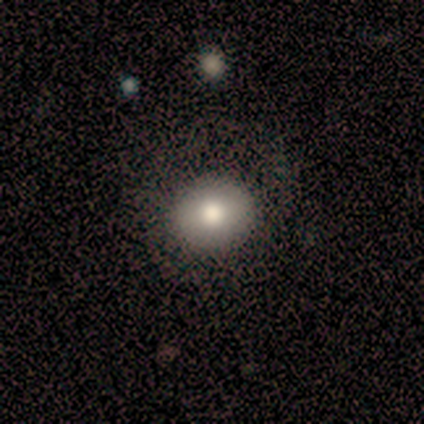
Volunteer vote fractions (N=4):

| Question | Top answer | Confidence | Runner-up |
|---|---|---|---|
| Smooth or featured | smooth | 100% | — |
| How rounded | round | 100% | — |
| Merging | none | 75% | major disturbance (25%) |